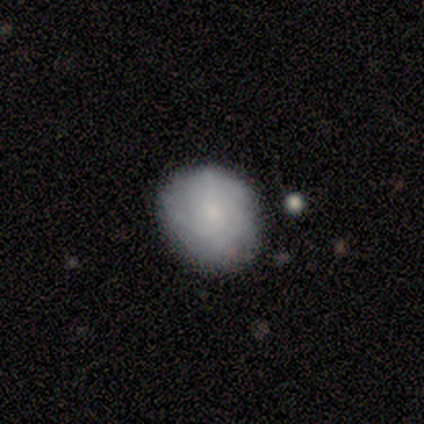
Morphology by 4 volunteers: Smooth or featured?
  - smooth: 75% *
  - featured or disk: 25%
  - star or artifact: 0%
How rounded?
  - round: 67% *
  - in between: 33%
  - cigar-shaped: 0%
Merging?
  - none: 100% *
  - minor disturbance: 0%
  - major disturbance: 0%
  - merger: 0%